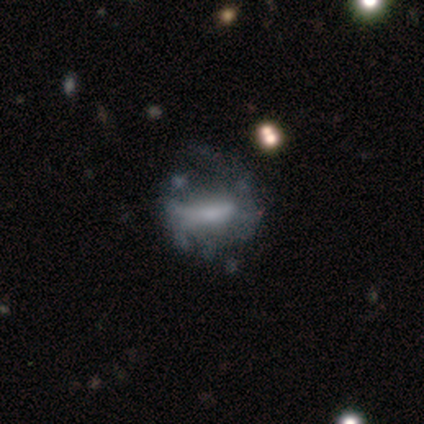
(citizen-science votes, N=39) Smooth or featured? 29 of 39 (74%) said featured or disk. Edge-on disk? 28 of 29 (97%) said no. Bar? 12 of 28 (43%) said strong. Spiral arms? 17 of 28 (61%) said no. Bulge size? 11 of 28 (39%) said none. Merging? 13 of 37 (35%) said major disturbance.